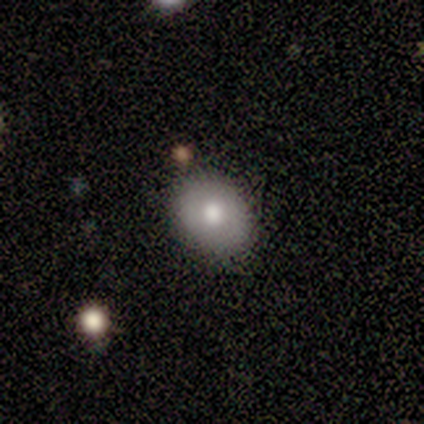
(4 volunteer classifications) Q: Smooth or featured?
A: smooth (75%); runner-up: featured or disk (25%)
Q: How rounded?
A: in between (100%)
Q: Merging?
A: none (100%)